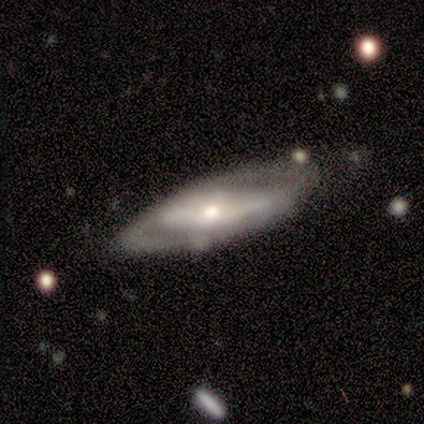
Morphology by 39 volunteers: Overall: featured or disk (87%). Edge-on disk: no (79%). Bar: no (56%; weak 26%). Spiral arms: no (59%; yes 41%). Bulge size: moderate (52%; small 22%). Merging: none (56%; major disturbance 21%).